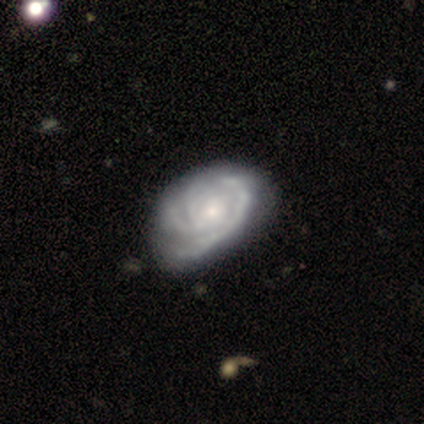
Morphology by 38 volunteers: Overall: featured or disk (82%). Edge-on disk: no (97%). Bar: no (80%). Spiral arms: yes (97%). Spiral arm count: 3 (59%). Spiral winding: tight (72%). Bulge size: small (60%; moderate 30%). Merging: none (44%; minor disturbance 24%).